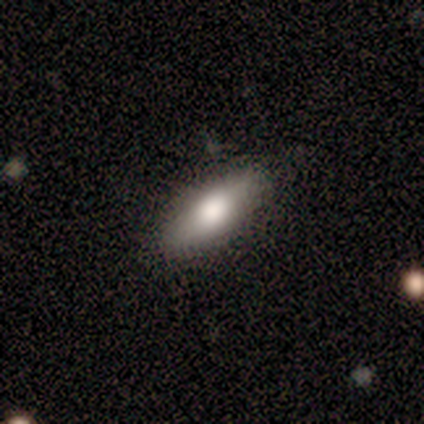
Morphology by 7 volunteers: Q: Smooth or featured?
A: smooth (86%); runner-up: featured or disk (14%)
Q: How rounded?
A: in between (67%); runner-up: cigar-shaped (33%)
Q: Merging?
A: none (100%)